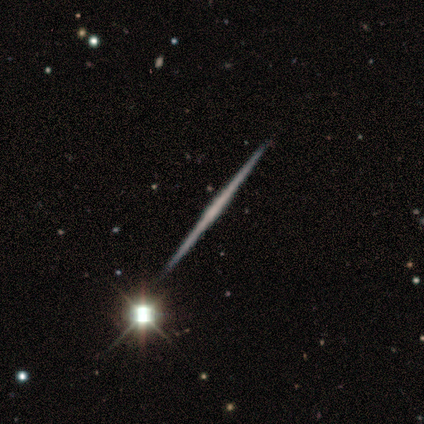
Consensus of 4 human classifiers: Smooth or featured? 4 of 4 (100%) said featured or disk. Edge-on disk? 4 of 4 (100%) said yes. Edge-on bulge? 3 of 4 (75%) said none. Merging? 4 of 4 (100%) said none.